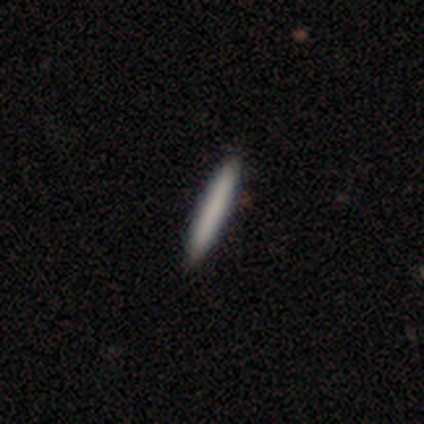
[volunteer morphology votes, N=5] A smooth galaxy with no disk features (80%) that is cigar-shaped (100%).

Vote fractions:
- Smooth or featured? smooth: 80% / featured or disk: 20% / star or artifact: 0%
- How rounded? cigar-shaped: 100% / round: 0% / in between: 0%
- Merging? none: 100% / minor disturbance: 0% / major disturbance: 0% / merger: 0%